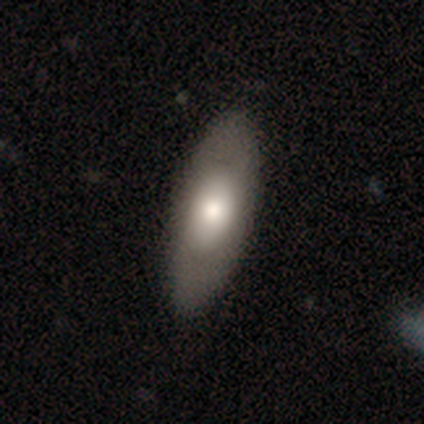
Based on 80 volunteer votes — This is likely a smooth galaxy (60%). How rounded: clearly in between (81%). Merging: marginally none (42%).